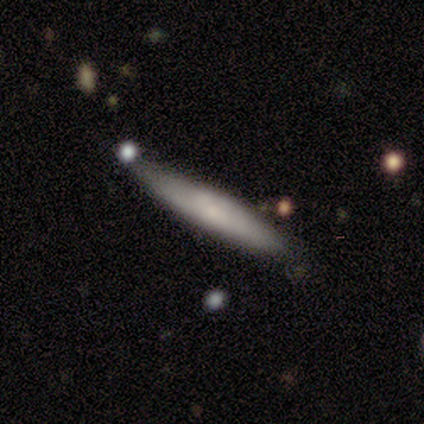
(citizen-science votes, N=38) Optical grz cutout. It shows a smooth galaxy with no disk features (63%) that is cigar-shaped (96%). Merging: none (62%).